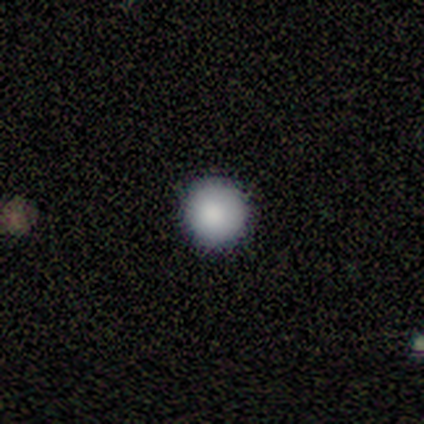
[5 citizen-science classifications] This is clearly a smooth galaxy (100%). How rounded: clearly round (100%). Merging: clearly none (100%).